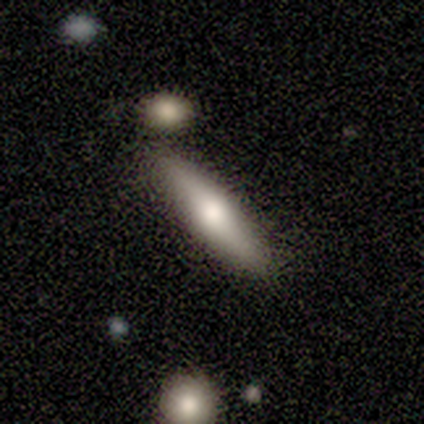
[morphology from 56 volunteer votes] Volunteers were most divided on "smooth or featured": smooth: 64%, featured or disk: 32%, star or artifact: 4%. More confident: merging — none (78%); how rounded — cigar-shaped (75%).